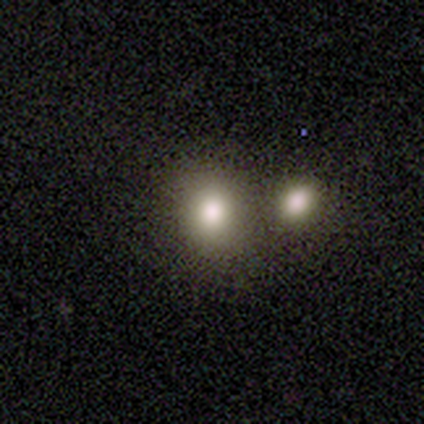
smooth-or-featured: smooth: 100% | featured or disk: 0% | star or artifact: 0%
  how-rounded: round: 100% | in between: 0% | cigar-shaped: 0%
  merging: none: 100% | minor disturbance: 0% | major disturbance: 0% | merger: 0%